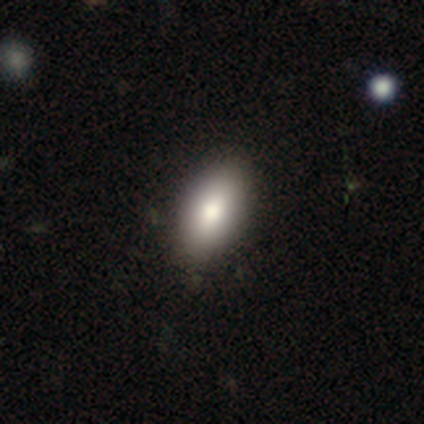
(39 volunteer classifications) Q: Smooth or featured?
A: smooth (85%); runner-up: featured or disk (10%)
Q: How rounded?
A: in between (94%); runner-up: round (3%)
Q: Merging?
A: none (70%); runner-up: minor disturbance (8%)